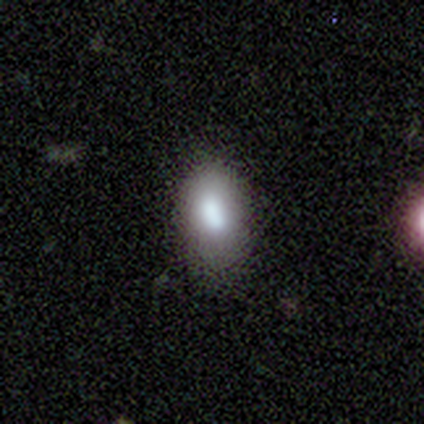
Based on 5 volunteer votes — Smooth or featured? 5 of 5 (100%) said smooth. How rounded? 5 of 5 (100%) said in between. Merging? 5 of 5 (100%) said none.